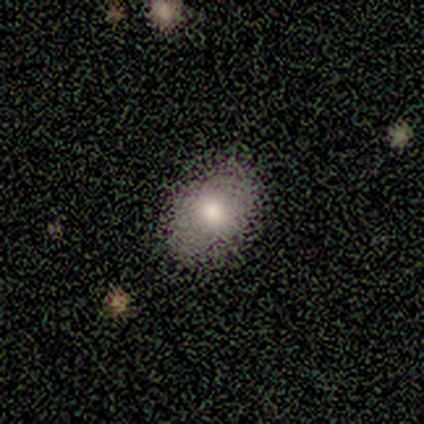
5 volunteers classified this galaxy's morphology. Smooth or featured?
  - smooth: 80% *
  - featured or disk: 20%
  - star or artifact: 0%
How rounded?
  - in between: 75% *
  - round: 25%
  - cigar-shaped: 0%
Merging?
  - none: 80% *
  - major disturbance: 20%
  - minor disturbance: 0%
  - merger: 0%